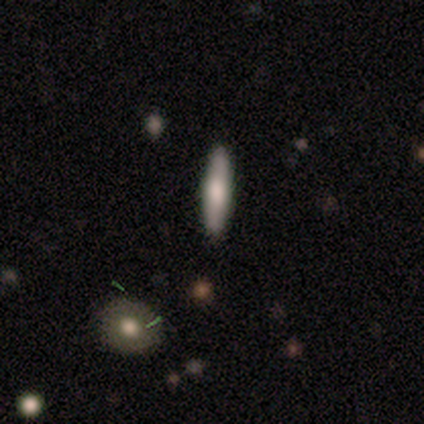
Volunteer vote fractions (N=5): Smooth or featured? 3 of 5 (60%) said featured or disk. Edge-on disk? 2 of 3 (67%) said no. Bar? 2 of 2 (100%) said no. Spiral arms? 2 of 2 (100%) said no. Bulge size? 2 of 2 (100%) said moderate. Merging? 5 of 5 (100%) said none.